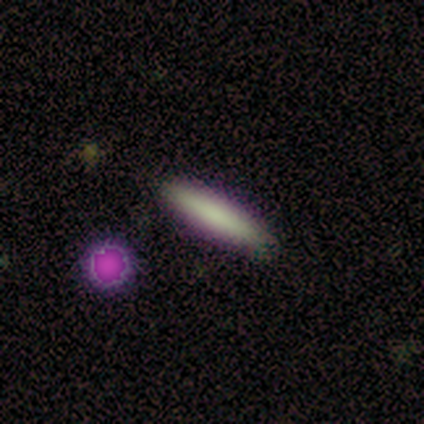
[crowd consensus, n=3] A smooth galaxy with no disk features (100%) that is cigar-shaped (100%). Merging: none (100%).